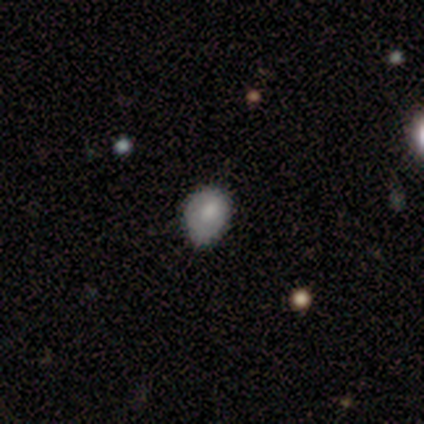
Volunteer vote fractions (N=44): Overall: smooth (75%). How rounded: in between (61%; round 39%). Merging: none (50%; minor disturbance 45%).